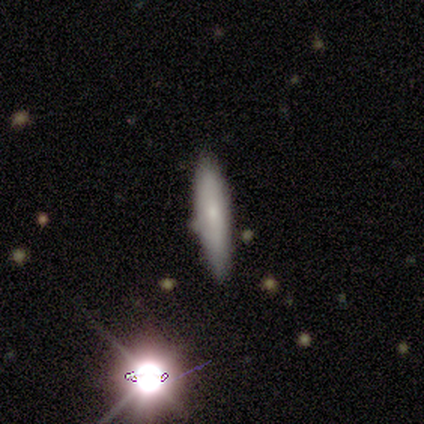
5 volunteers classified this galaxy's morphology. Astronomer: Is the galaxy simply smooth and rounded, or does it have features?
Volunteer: smooth — 60% (runner-up: featured or disk, 40%).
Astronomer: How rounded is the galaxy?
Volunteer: cigar-shaped — 100%.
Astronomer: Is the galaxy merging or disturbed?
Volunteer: none — 80%.